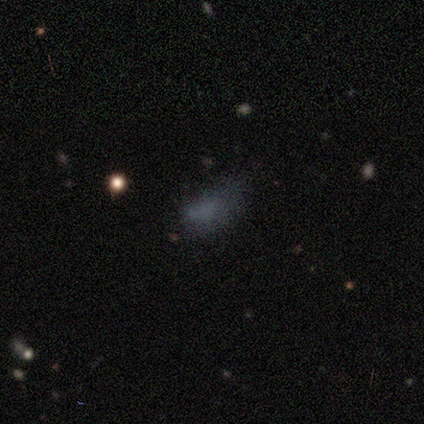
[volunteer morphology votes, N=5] Smooth or featured? 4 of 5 (80%) said star or artifact.